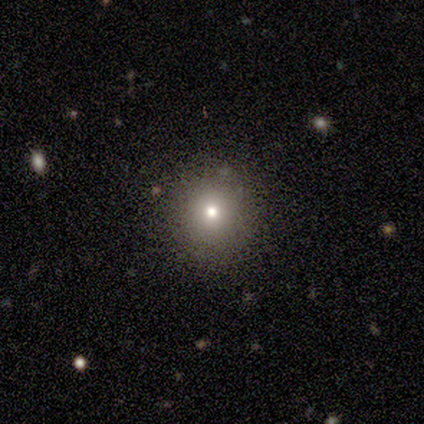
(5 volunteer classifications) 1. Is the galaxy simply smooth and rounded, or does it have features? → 40% smooth (tied), 40% star or artifact (tied), 20% featured or disk.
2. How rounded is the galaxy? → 100% round, 0% in between, 0% cigar-shaped.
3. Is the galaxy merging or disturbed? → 100% none, 0% minor disturbance, 0% major disturbance, 0% merger.